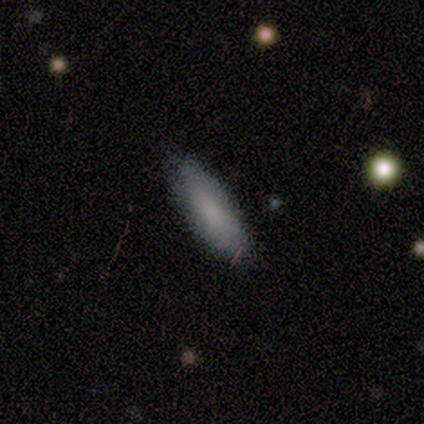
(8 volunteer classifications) Smooth or featured: smooth — 75% (featured or disk — 25%)
How rounded: in between — 67% (cigar-shaped — 33%)
Merging: none — 88% (minor disturbance — 12%)